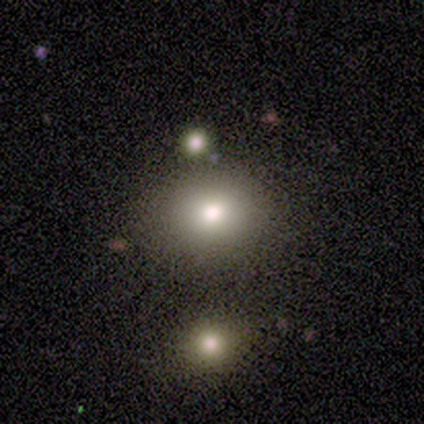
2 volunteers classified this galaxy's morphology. Smooth or featured? smooth (50%, tied with star or artifact)
How rounded? round (100%)
Merging? none (100%)